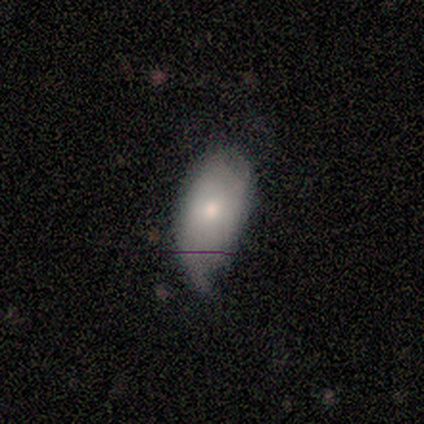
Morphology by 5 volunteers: Overall: smooth (60%; featured or disk 40%). How rounded: in between (100%). Merging: minor disturbance (40%, tied with major disturbance).